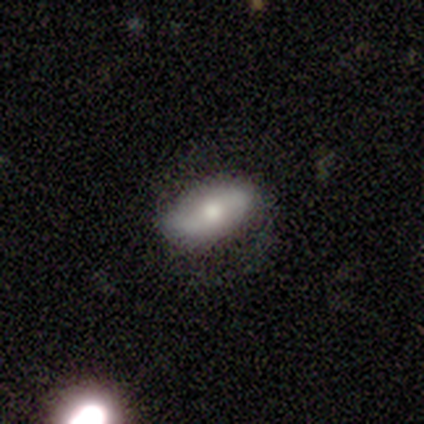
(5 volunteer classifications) A featured or disk galaxy (60%) with a strong bar (100%), 2 (100%) tight (50%, tied with loose) spiral arms (67%) and a moderate central bulge (100%).

Vote fractions:
- Smooth or featured? featured or disk: 60% / smooth: 20% / star or artifact: 20%
- Edge-on disk? no: 100% / yes: 0%
- Bar? strong: 100% / weak: 0% / no: 0%
- Spiral arms? yes: 67% / no: 33%
- Spiral winding? tight: 50% (tied) / loose: 50% (tied) / medium: 0%
- Spiral arm count? 2: 100% / 1: 0% / 3: 0% / 4: 0% / more than 4: 0% / can't tell: 0%
- Bulge size? moderate: 100% / dominant: 0% / large: 0% / small: 0% / none: 0%
- Merging? none: 75% / minor disturbance: 25% / major disturbance: 0% / merger: 0%